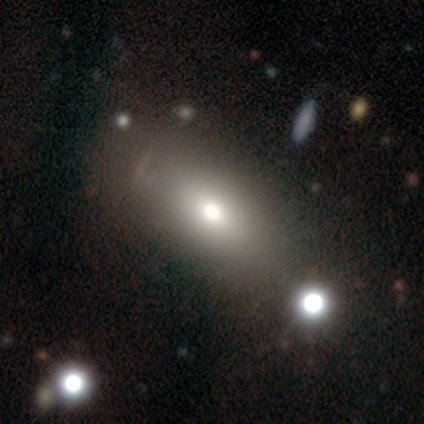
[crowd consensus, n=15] smooth 67%, star or artifact 27%, featured or disk 7%. Down the decision tree: how rounded — in between (90%); merging — none (82%).